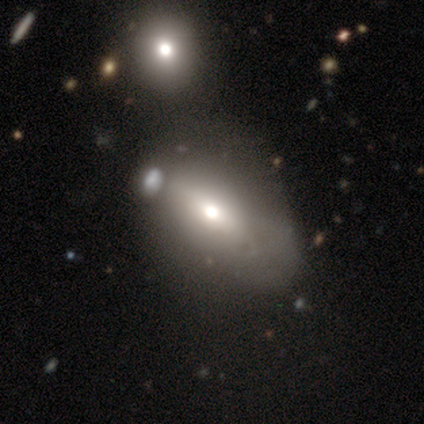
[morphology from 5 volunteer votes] This appears to be a smooth galaxy with no disk features (60%) that is in between round and cigar-shaped (67%). Merging: minor disturbance (67%).